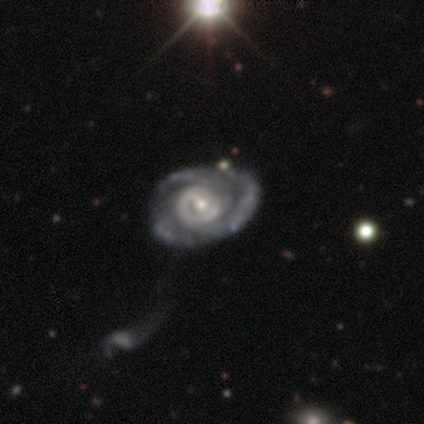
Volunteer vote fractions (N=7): A featured or disk galaxy (100%) with no bar (43%), tight (67%) spiral arms (86%) and a small central bulge (57%). Merging: none (100%).